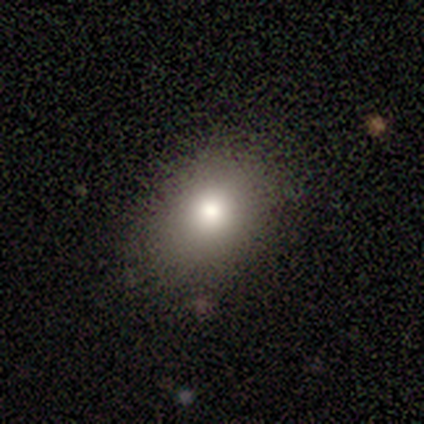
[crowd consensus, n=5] smooth-or-featured: smooth: 80% | featured or disk: 20% | star or artifact: 0%
  how-rounded: in between: 100% | round: 0% | cigar-shaped: 0%
  merging: none: 80% | major disturbance: 20% | minor disturbance: 0% | merger: 0%